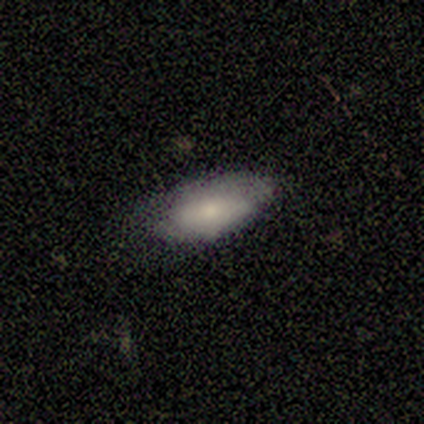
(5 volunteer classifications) Smooth or featured? 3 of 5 (60%) said smooth. How rounded? 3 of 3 (100%) said in between. Merging? 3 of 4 (75%) said none.